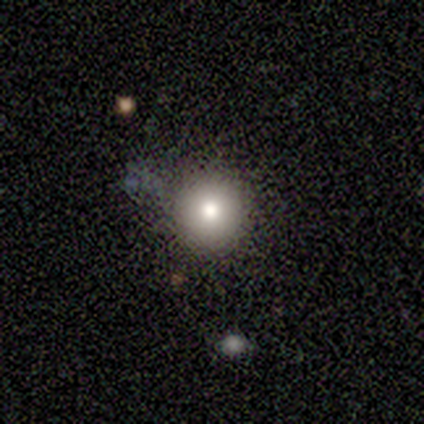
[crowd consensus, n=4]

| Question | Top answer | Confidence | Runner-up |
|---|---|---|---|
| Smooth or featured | smooth | 100% | — |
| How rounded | round | 100% | — |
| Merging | none | 75% | minor disturbance (25%) |